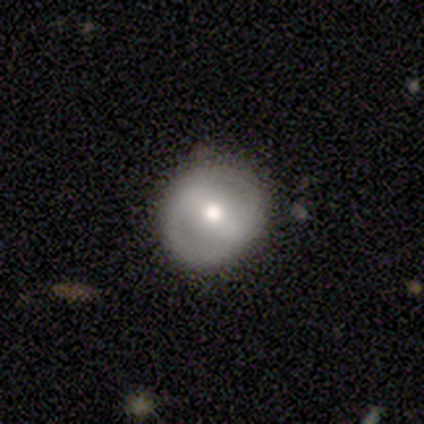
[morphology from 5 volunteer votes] Smooth or featured: featured or disk — 80% (smooth — 20%)
Edge-on disk: no — 100%
Bar: strong — 50% (tied with no — 50%)
Spiral arms: yes — 50% (tied with no — 50%)
Spiral winding: tight — 50% (tied with medium — 50%)
Spiral arm count: 2 — 100%
Bulge size: moderate — 50% (large — 25%)
Merging: none — 80% (minor disturbance — 20%)